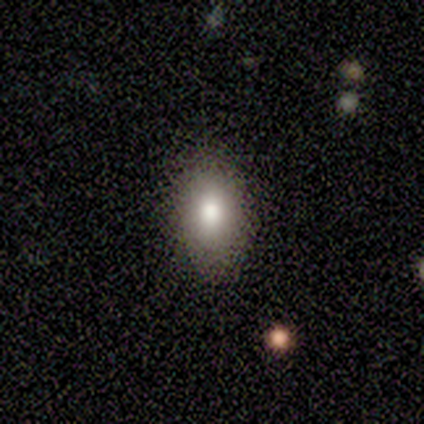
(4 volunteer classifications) Volunteers were most divided on "how rounded": in between: 67%, round: 33%, cigar-shaped: 0%. More confident: smooth or featured — smooth (75%); merging — none (75%).